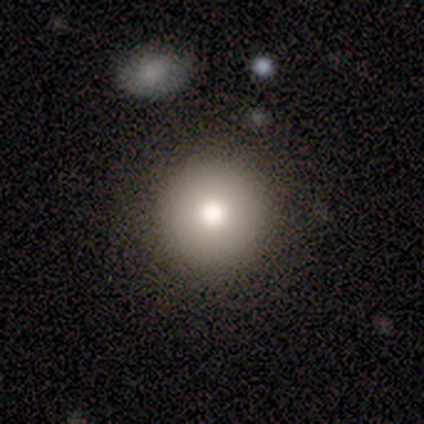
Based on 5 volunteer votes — smooth-or-featured: smooth: 60% | featured or disk: 20% | star or artifact: 20%
  how-rounded: round: 100% | in between: 0% | cigar-shaped: 0%
  merging: none: 75% | minor disturbance: 25% | major disturbance: 0% | merger: 0%